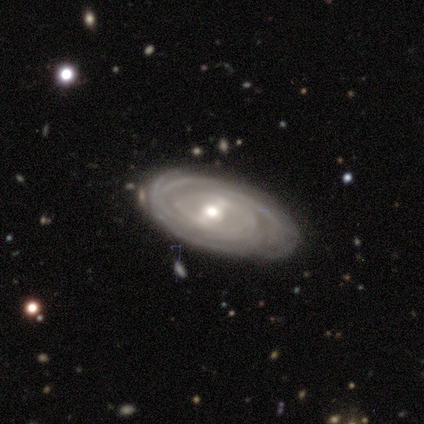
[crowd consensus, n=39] This appears to be a featured or disk galaxy (90%) with a weak bar (39%), tight (76%) spiral arms (94%) and a moderate central bulge (52%). Merging: none (92%).